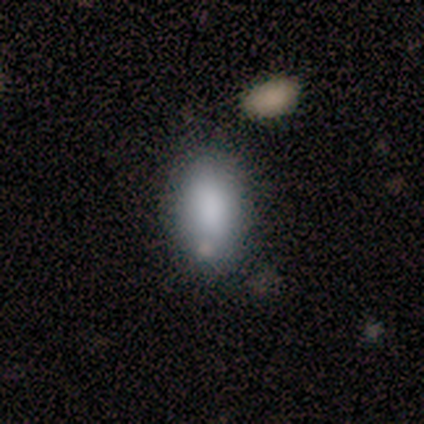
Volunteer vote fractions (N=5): A smooth galaxy with no disk features (80%) that is in between round and cigar-shaped (100%).

Vote fractions:
- Smooth or featured? smooth: 80% / featured or disk: 20% / star or artifact: 0%
- How rounded? in between: 100% / round: 0% / cigar-shaped: 0%
- Merging? none: 60% / minor disturbance: 40% / major disturbance: 0% / merger: 0%